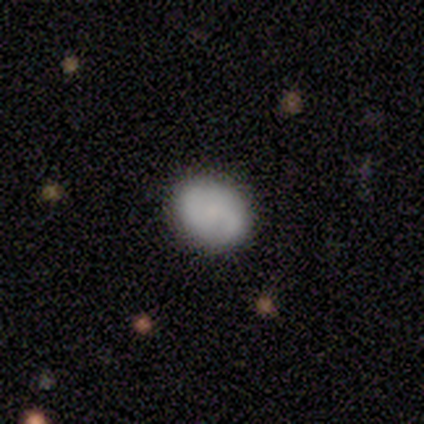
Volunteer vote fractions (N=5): Overall: smooth (100%). How rounded: round (60%; in between 40%). Merging: none (100%).